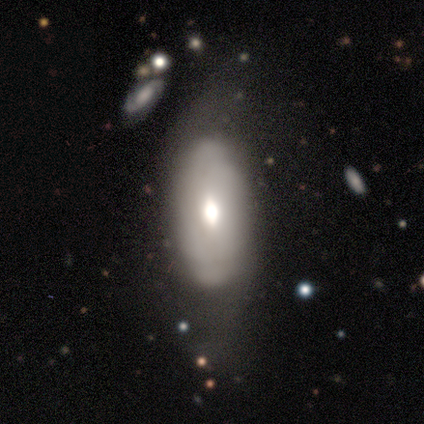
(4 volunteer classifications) Morphology: type=smooth (50%); roundness=in between (100%); merging=minor disturbance (67%).